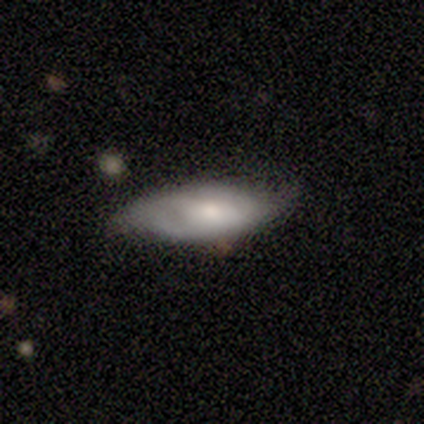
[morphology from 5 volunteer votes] smooth_or_featured: featured or disk (p=0.60) [alt: smooth p=0.40]
disk_edge_on: no (p=0.67) [alt: yes p=0.33]
bar: no (p=1.00)
has_spiral_arms: yes (p=0.50) [tied with: no p=0.50]
spiral_winding: medium (p=1.00)
spiral_arm_count: 2 (p=1.00)
bulge_size: small (p=1.00)
merging: none (p=0.60) [alt: minor disturbance p=0.40]